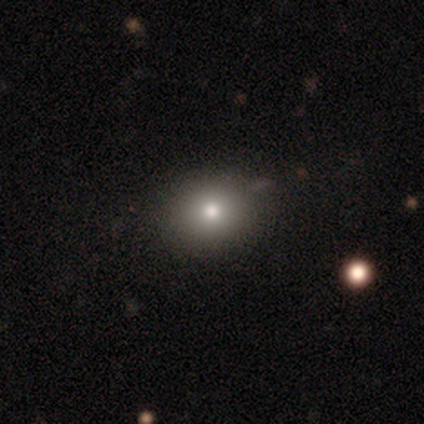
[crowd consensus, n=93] smooth_or_featured: smooth (p=0.76) [alt: star or artifact p=0.13]
how_rounded: round (p=0.68) [alt: in between p=0.31]
merging: none (p=0.83) [alt: minor disturbance p=0.14]